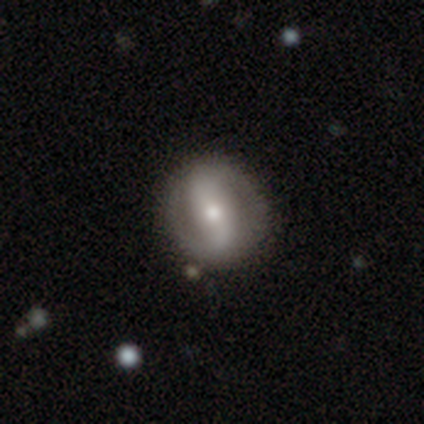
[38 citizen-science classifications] A featured or disk galaxy (82%) with a strong bar (42%), 2 (100%) tight (44%) spiral arms (81%) and a small central bulge (55%).

Vote fractions:
- Smooth or featured? featured or disk: 82% / smooth: 18% / star or artifact: 0%
- Edge-on disk? no: 100% / yes: 0%
- Bar? strong: 42% / no: 35% / weak: 23%
- Spiral arms? yes: 81% / no: 19%
- Spiral winding? tight: 44% / loose: 36% / medium: 20%
- Spiral arm count? 2: 100% / 1: 0% / 3: 0% / 4: 0% / more than 4: 0% / can't tell: 0%
- Bulge size? small: 55% / moderate: 45% / dominant: 0% / large: 0% / none: 0%
- Merging? none: 82% / minor disturbance: 13% / major disturbance: 5% / merger: 0%